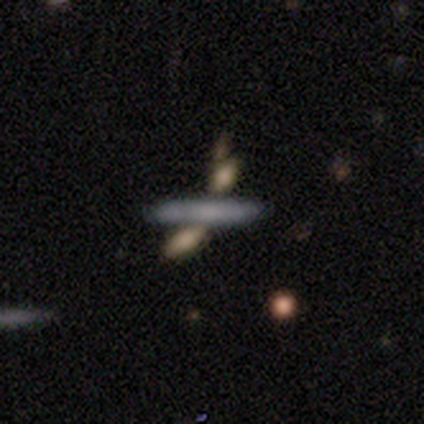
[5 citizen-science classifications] Smooth or featured: featured or disk — 60% (smooth — 20%)
Edge-on disk: yes — 67% (no — 33%)
Edge-on bulge: none — 100%
Merging: none — 75% (major disturbance — 25%)